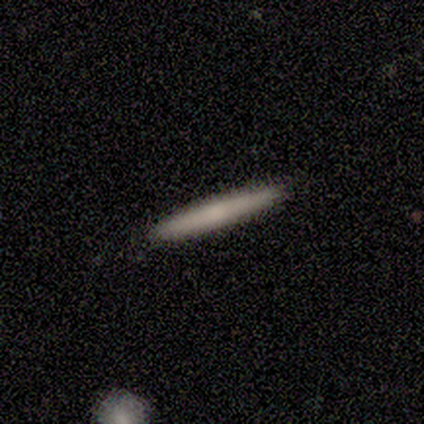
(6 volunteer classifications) smooth_or_featured: smooth (p=1.00)
how_rounded: cigar-shaped (p=1.00)
merging: none (p=1.00)